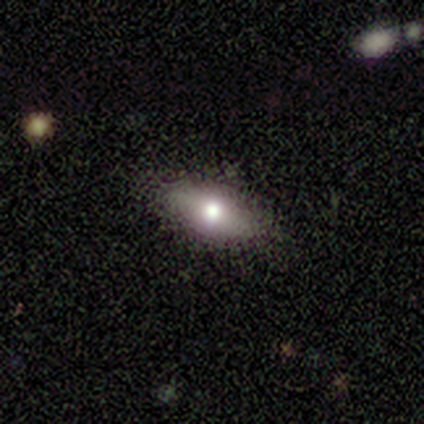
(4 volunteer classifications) Smooth or featured? 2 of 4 (50%, tied with featured or disk) said smooth. How rounded? 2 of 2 (100%) said in between. Merging? 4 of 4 (100%) said none.